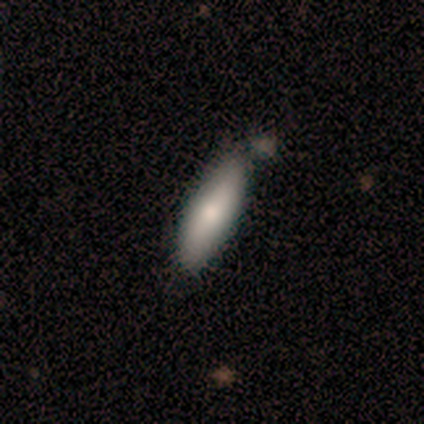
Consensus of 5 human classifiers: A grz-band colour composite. It shows a smooth galaxy with no disk features (100%) that is in between round and cigar-shaped (60%). Merging: none (60%).